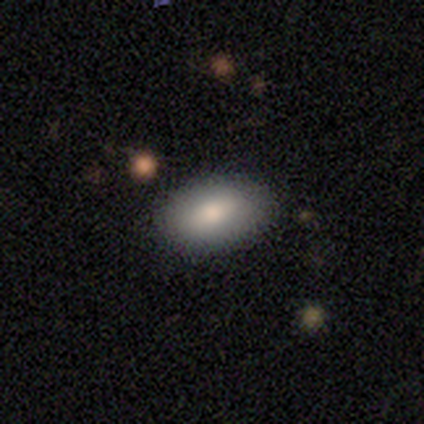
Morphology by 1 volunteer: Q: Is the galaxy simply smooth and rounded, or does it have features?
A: smooth — 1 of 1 (100%).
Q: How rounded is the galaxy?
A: in between — 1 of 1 (100%).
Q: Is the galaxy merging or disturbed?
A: merger — 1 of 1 (100%).